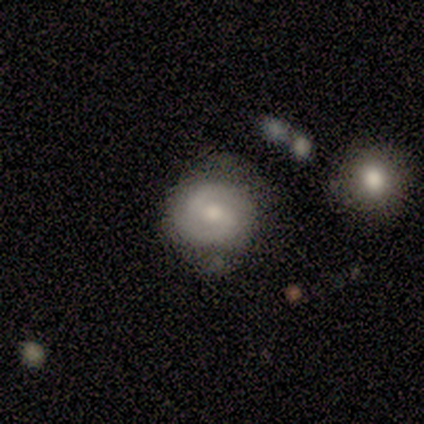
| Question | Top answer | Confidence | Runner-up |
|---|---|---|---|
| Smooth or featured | featured or disk | 80% | smooth (20%) |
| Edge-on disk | no | 100% | — |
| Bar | weak | 75% | strong (25%) |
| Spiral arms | yes | 100% | — |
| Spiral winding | medium | 50% | tight (25%) |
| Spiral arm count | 2 | 100% | — |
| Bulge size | small | 75% | moderate (25%) |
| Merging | none | 60% | minor disturbance (40%) |